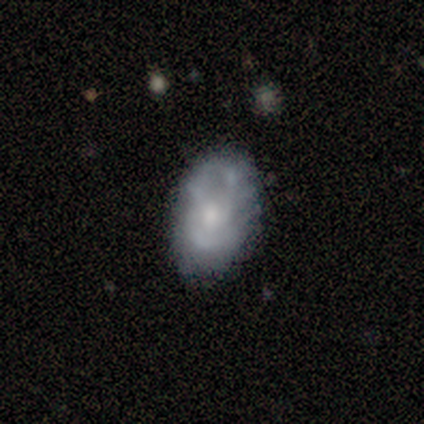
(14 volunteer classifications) Smooth or featured: featured or disk — 57% (smooth — 36%)
Edge-on disk: no — 100%
Bar: no — 62% (weak — 38%)
Spiral arms: yes — 50% (tied with no — 50%)
Spiral winding: tight — 75% (medium — 25%)
Spiral arm count: 2 — 50% (tied with can't tell — 50%)
Bulge size: moderate — 50% (small — 38%)
Merging: none — 46% (minor disturbance — 38%)